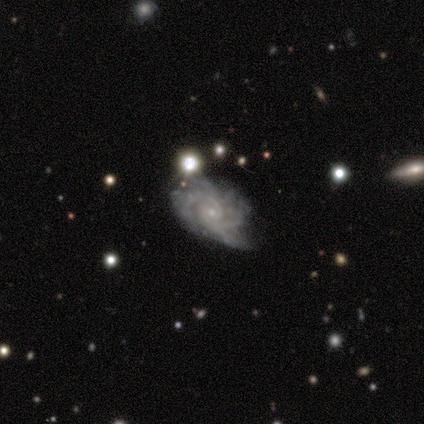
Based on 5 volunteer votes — featured or disk 100%, smooth 0%, star or artifact 0%. Down the decision tree: edge-on disk — no (100%); bar — no (60%); spiral arms — yes (100%); spiral arm count — 2 (40%, tied with 3); spiral winding — tight (80%); bulge size — small (100%); merging — minor disturbance (60%).